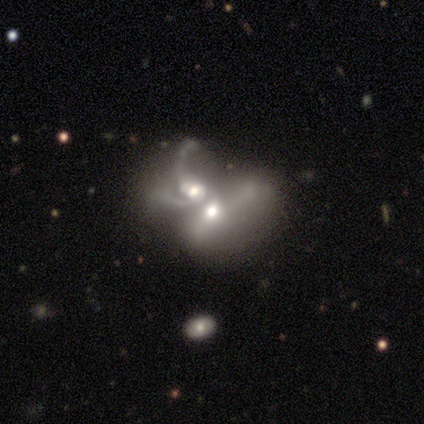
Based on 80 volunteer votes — smooth-or-featured: featured or disk: 72% | smooth: 19% | star or artifact: 9%
  disk-edge-on: no: 100% | yes: 0%
    bar: no: 84% | weak: 16% | strong: 0%
    has-spiral-arms: yes: 53% | no: 47%
      spiral-winding: loose: 65% | medium: 29% | tight: 6%
      spiral-arm-count: 2: 35% | can't tell: 32% | 4: 16% | 3: 10% | 1: 6% | more than 4: 0%
    bulge-size: moderate: 69% | large: 21% | small: 9% | none: 2% | dominant: 0%
  merging: merger: 93% | minor disturbance: 3% | major disturbance: 3% | none: 1%